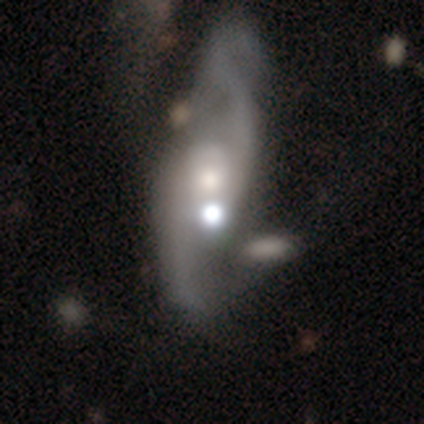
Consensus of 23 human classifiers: featured or disk 78%, smooth 17%, star or artifact 4%. Down the decision tree: edge-on disk — no (83%); bar — no (80%); spiral arms — yes (93%); spiral arm count — 2 (100%); spiral winding — loose (71%); bulge size — moderate (40%, tied with small); merging — none (32%, tied with major disturbance).